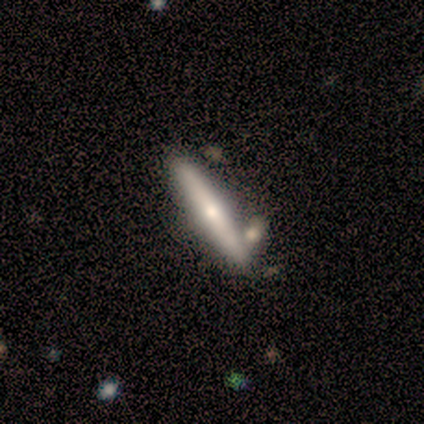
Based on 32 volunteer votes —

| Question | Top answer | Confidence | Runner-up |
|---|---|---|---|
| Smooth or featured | featured or disk | 72% | smooth (19%) |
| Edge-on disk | yes | 96% | no (4%) |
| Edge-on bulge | rounded | 82% | none (14%) |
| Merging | none | 76% | merger (14%) |